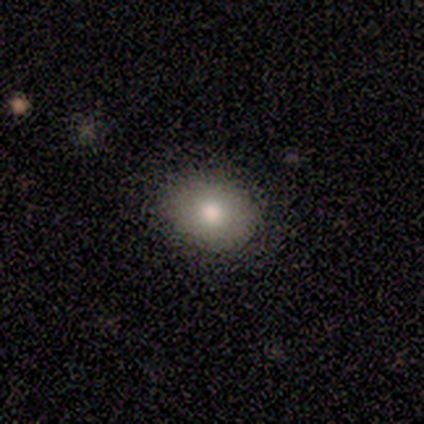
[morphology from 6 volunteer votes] This appears to be a smooth galaxy with no disk features (100%) that is round (67%). Merging: none (100%).